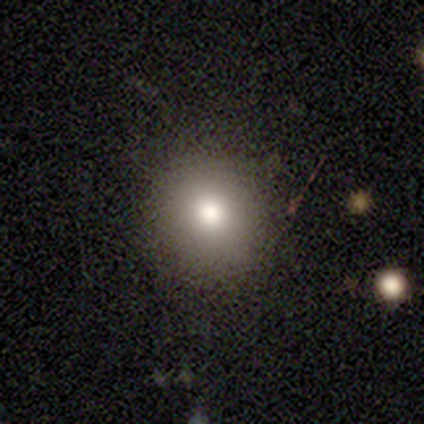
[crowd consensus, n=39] This is likely a smooth galaxy (69%). How rounded: clearly round (96%). Merging: clearly none (94%).